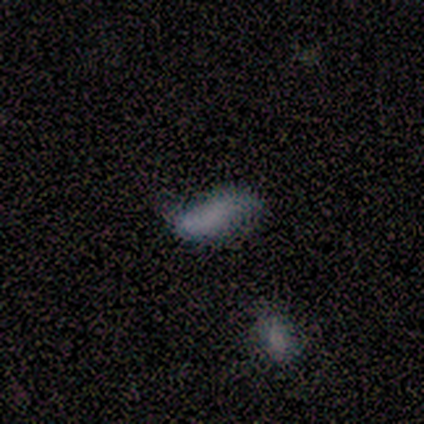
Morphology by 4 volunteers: smooth_or_featured: smooth (p=1.00)
how_rounded: in between (p=0.50) [tied with: cigar-shaped p=0.50]
merging: none (p=0.50) [tied with: minor disturbance p=0.50]